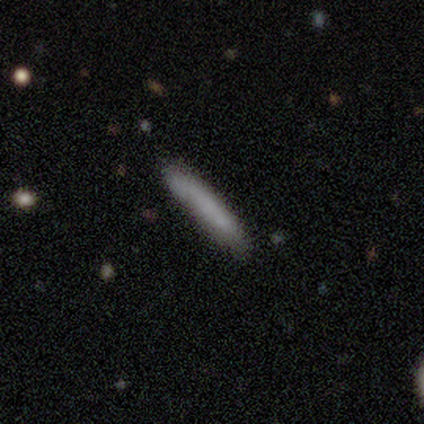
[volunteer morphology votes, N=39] This is likely a smooth galaxy (77%). How rounded: clearly cigar-shaped (97%). Merging: clearly none (81%).